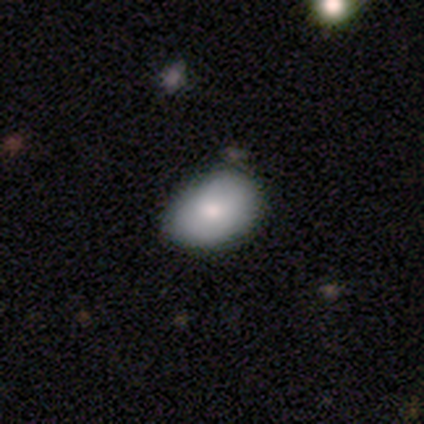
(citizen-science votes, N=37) Smooth or featured: smooth — 78% (featured or disk — 16%)
How rounded: in between — 69% (round — 31%)
Merging: none — 69% (minor disturbance — 23%)